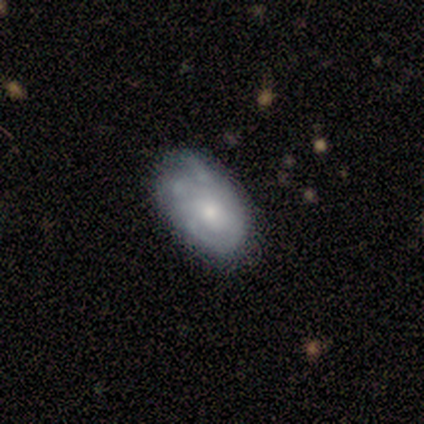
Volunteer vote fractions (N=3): Smooth or featured?
  - featured or disk: 67% *
  - star or artifact: 33%
  - smooth: 0%
Edge-on disk?
  - no: 100% *
  - yes: 0%
Bar?
  - strong: 50% * (tied)
  - no: 50% * (tied)
  - weak: 0%
Spiral arms?
  - yes: 50% * (tied)
  - no: 50% * (tied)
Spiral winding?
  - tight: 100% *
  - medium: 0%
  - loose: 0%
Spiral arm count?
  - 2: 100% *
  - 1: 0%
  - 3: 0%
  - 4: 0%
  - more than 4: 0%
  - can't tell: 0%
Bulge size?
  - moderate: 50% * (tied)
  - small: 50% * (tied)
  - dominant: 0%
  - large: 0%
  - none: 0%
Merging?
  - none: 50% * (tied)
  - major disturbance: 50% * (tied)
  - minor disturbance: 0%
  - merger: 0%